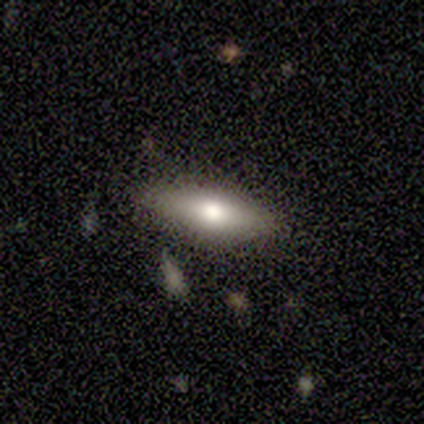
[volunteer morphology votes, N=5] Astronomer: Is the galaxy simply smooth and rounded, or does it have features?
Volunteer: smooth — 100%.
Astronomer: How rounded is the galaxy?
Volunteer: cigar-shaped — 60% (runner-up: in between, 40%).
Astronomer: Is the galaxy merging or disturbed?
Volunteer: none — 100%.